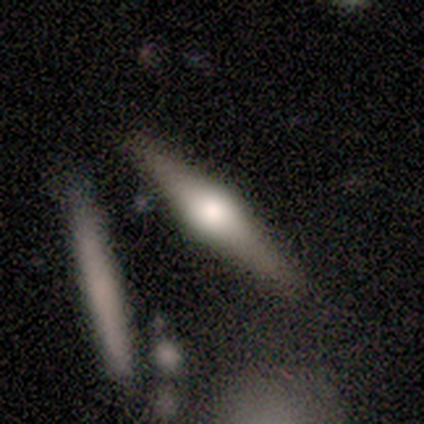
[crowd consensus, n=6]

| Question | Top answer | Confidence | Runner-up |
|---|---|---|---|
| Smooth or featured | featured or disk | 83% | smooth (17%) |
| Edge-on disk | yes | 80% | no (20%) |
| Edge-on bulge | rounded | 100% | — |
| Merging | none | 50% | tied: minor disturbance (50%) |